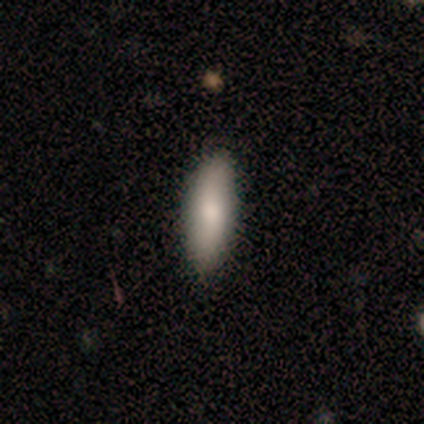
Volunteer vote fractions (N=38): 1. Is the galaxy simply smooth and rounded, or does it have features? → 84% smooth, 16% featured or disk, 0% star or artifact.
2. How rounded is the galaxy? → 53% cigar-shaped, 47% in between, 0% round.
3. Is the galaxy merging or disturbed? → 87% none, 11% minor disturbance, 3% merger, 0% major disturbance.